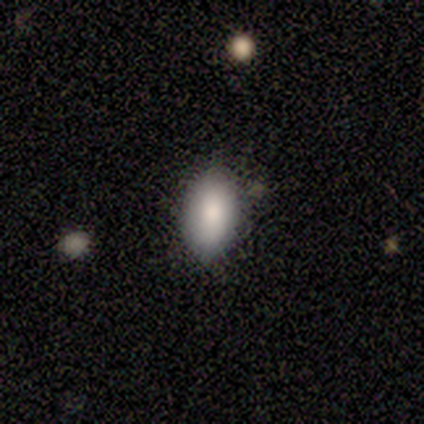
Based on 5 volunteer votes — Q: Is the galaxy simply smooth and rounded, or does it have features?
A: smooth — 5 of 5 (100%).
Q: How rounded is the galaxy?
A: in between — 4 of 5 (80%).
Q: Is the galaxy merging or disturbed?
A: none — 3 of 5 (60%).